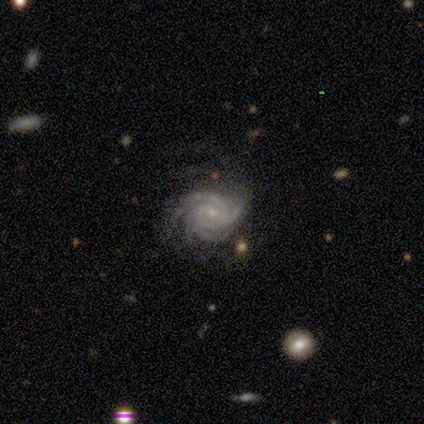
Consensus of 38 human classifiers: Smooth or featured? 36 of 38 (95%) said featured or disk. Edge-on disk? 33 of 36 (92%) said no. Bar? 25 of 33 (76%) said no. Spiral arms? 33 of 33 (100%) said yes. Spiral winding? 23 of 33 (70%) said tight. Spiral arm count? 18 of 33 (55%) said 4. Bulge size? 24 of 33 (73%) said small. Merging? 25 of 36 (69%) said none.